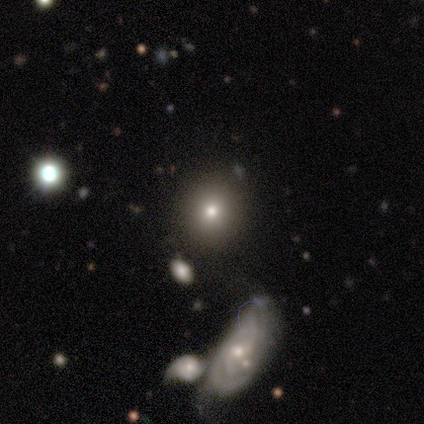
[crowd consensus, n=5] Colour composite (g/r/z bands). It shows a smooth galaxy with no disk features (40%, tied with featured or disk) that is round (50%, tied with cigar-shaped). Merging: none (50%).